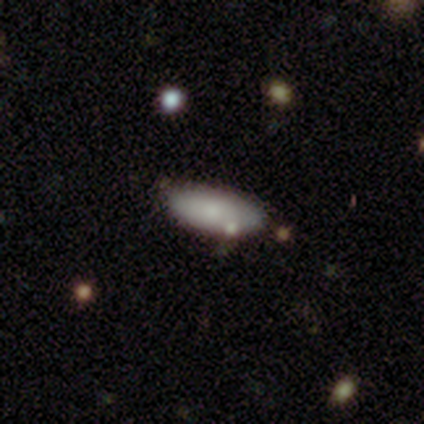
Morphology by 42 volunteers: type=smooth (76%); roundness=in between (75%); merging=none (74%).